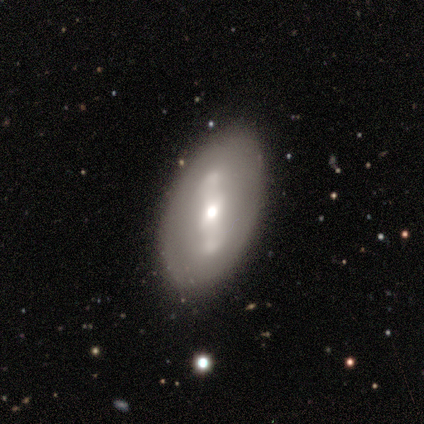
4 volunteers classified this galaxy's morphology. A featured or disk galaxy (75%) viewed edge-on (67%) with no central bulge (50%, tied with rounded).

Vote fractions:
- Smooth or featured? featured or disk: 75% / smooth: 25% / star or artifact: 0%
- Edge-on disk? yes: 67% / no: 33%
- Edge-on bulge? none: 50% (tied) / rounded: 50% (tied) / boxy: 0%
- Merging? none: 100% / minor disturbance: 0% / major disturbance: 0% / merger: 0%